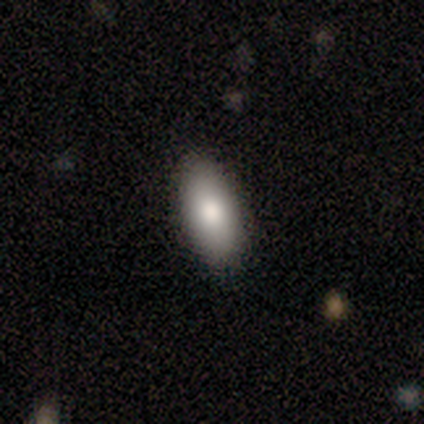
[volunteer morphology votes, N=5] Smooth or featured?
  - smooth: 80% *
  - star or artifact: 20%
  - featured or disk: 0%
How rounded?
  - in between: 100% *
  - round: 0%
  - cigar-shaped: 0%
Merging?
  - none: 100% *
  - minor disturbance: 0%
  - major disturbance: 0%
  - merger: 0%